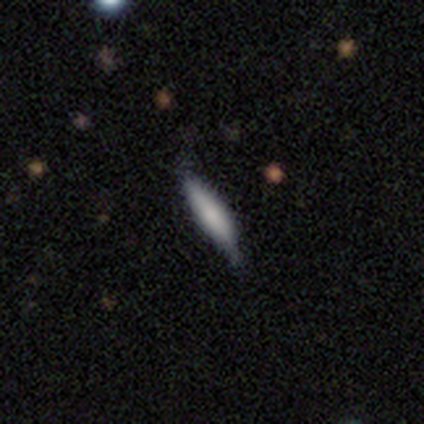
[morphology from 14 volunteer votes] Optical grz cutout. It shows a smooth galaxy with no disk features (86%) that is cigar-shaped (75%). Merging: none (77%).